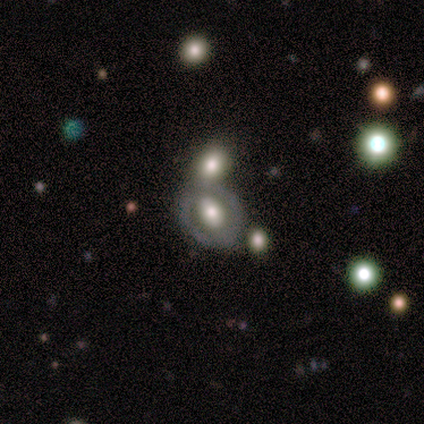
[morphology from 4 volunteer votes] Smooth or featured? smooth (50%, tied with featured or disk)
How rounded? in between (100%)
Merging? merger (50%)